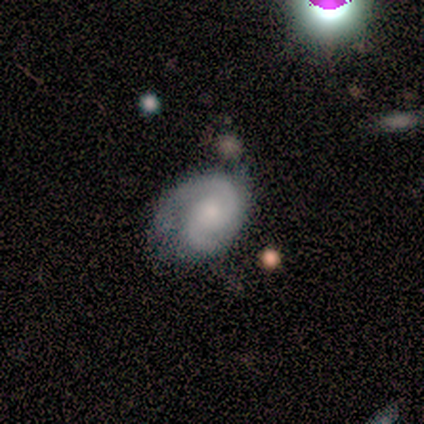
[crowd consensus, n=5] Overall: featured or disk (100%). Edge-on disk: no (100%). Bar: no (80%). Spiral arms: yes (100%). Spiral arm count: 2 (100%). Spiral winding: tight (80%). Bulge size: small (80%). Merging: none (80%).